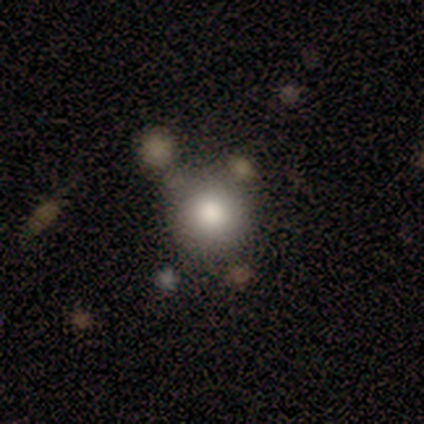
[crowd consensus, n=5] Overall: smooth (80%). How rounded: round (100%). Merging: none (100%).